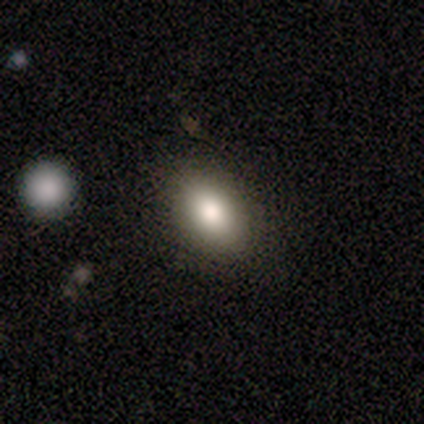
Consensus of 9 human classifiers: Overall: smooth (89%). How rounded: in between (88%). Merging: none (78%).